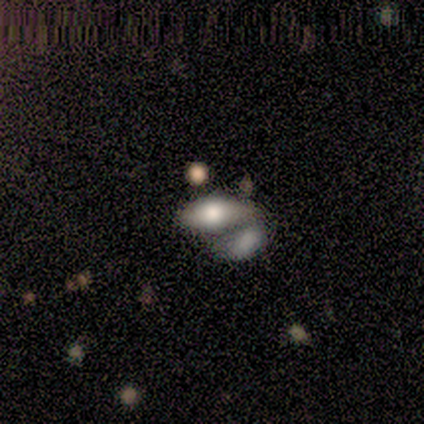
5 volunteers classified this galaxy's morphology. Volunteers were most divided on "merging" (2-way tie): none: 50%, merger: 50%, minor disturbance: 0%, major disturbance: 0%. More confident: how rounded — in between (100%); smooth or featured — smooth (60%).